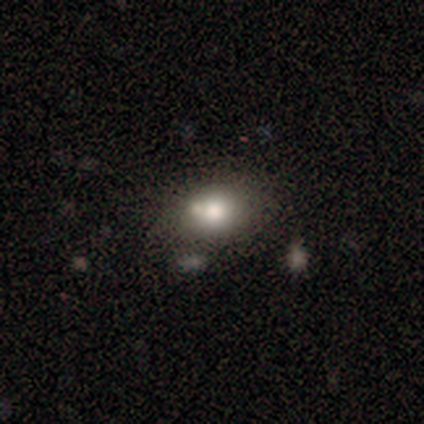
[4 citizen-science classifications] This is clearly a smooth galaxy (100%). How rounded: likely in between (75%). Merging: clearly none (100%).